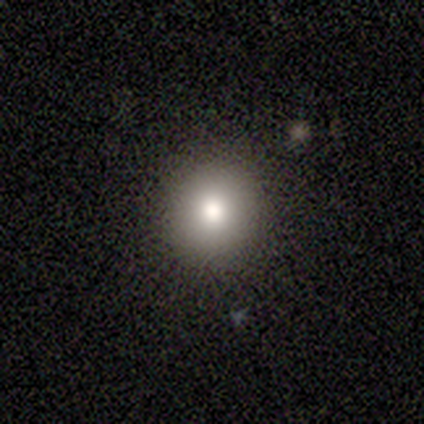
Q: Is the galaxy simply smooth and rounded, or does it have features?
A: smooth — 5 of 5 (100%).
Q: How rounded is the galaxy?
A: round — 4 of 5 (80%).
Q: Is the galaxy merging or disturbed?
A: none — 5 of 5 (100%).